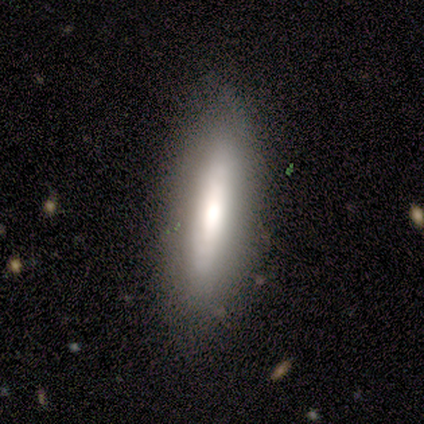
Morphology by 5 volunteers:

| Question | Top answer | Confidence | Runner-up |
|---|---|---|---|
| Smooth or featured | smooth | 60% | featured or disk (20%) |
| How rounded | cigar-shaped | 67% | in between (33%) |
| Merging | none | 75% | minor disturbance (25%) |